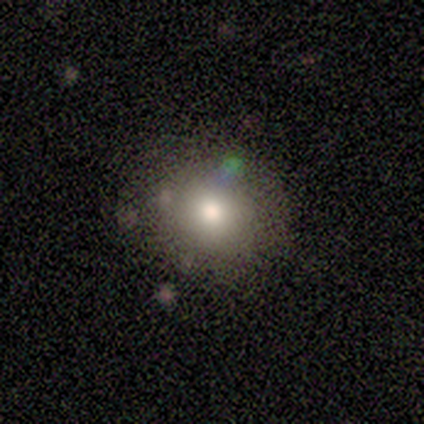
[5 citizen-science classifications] This is clearly a smooth galaxy (100%). How rounded: clearly round (100%). Merging: likely minor disturbance (60%).